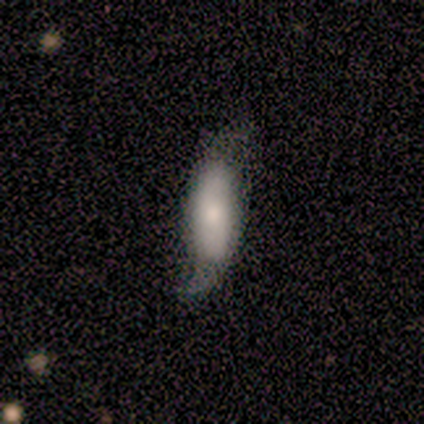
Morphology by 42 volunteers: smooth_or_featured: featured or disk (p=0.55) [alt: smooth p=0.45]
disk_edge_on: no (p=0.87) [alt: yes p=0.13]
bar: no (p=0.85) [alt: weak p=0.15]
has_spiral_arms: yes (p=0.80) [alt: no p=0.20]
spiral_winding: loose (p=0.75) [alt: tight p=0.12]
spiral_arm_count: 2 (p=0.81) [alt: can't tell p=0.12]
bulge_size: moderate (p=0.60) [alt: small p=0.35]
merging: minor disturbance (p=0.50) [alt: none p=0.29]